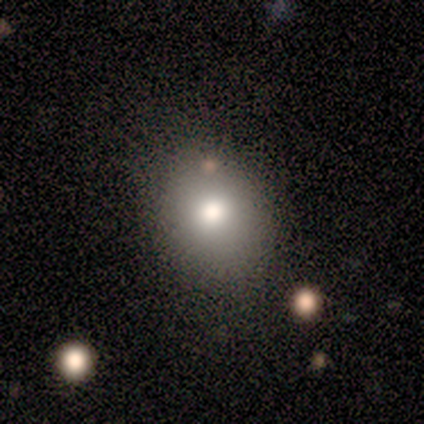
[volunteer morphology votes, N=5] Overall: smooth (60%; featured or disk 20%). How rounded: round (100%). Merging: none (100%).